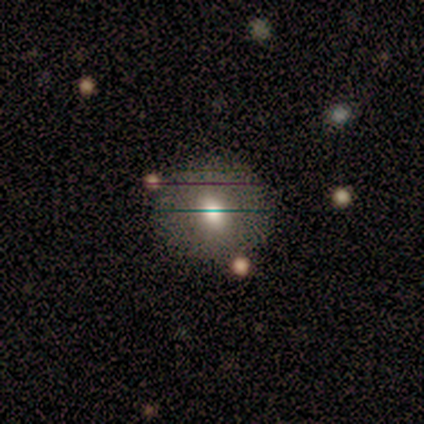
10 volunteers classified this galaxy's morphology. This appears to be a smooth galaxy with no disk features (50%, tied with featured or disk) that is round (80%). Merging: none (90%).